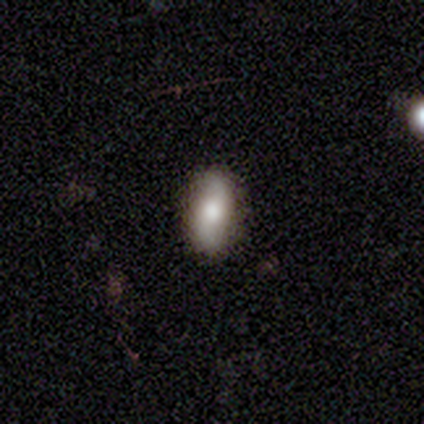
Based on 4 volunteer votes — smooth 75%, featured or disk 25%, star or artifact 0%. Down the decision tree: how rounded — cigar-shaped (67%); merging — none (50%).